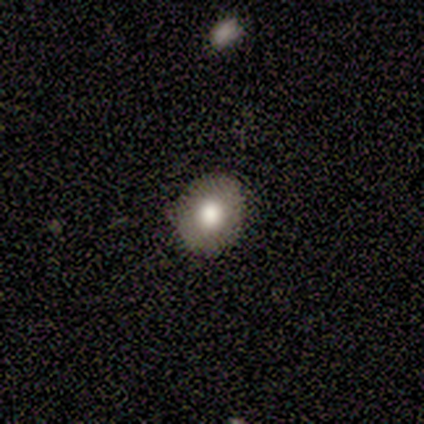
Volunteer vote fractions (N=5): Morphology: type=smooth (100%); roundness=round (80%); merging=none (100%).